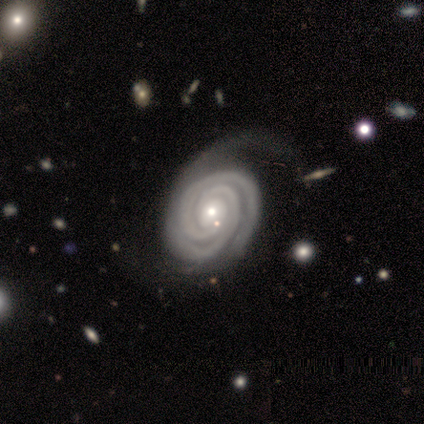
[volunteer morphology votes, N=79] A featured or disk galaxy (97%) with no bar (77%), 2 (64%) tight (89%) spiral arms (100%) and a small central bulge (63%).

Vote fractions:
- Smooth or featured? featured or disk: 97% / smooth: 1% / star or artifact: 1%
- Edge-on disk? no: 97% / yes: 3%
- Bar? no: 77% / strong: 12% / weak: 11%
- Spiral arms? yes: 100% / no: 0%
- Spiral winding? tight: 89% / medium: 11% / loose: 0%
- Spiral arm count? 2: 64% / 3: 19% / 4: 7% / more than 4: 5% / can't tell: 5% / 1: 0%
- Bulge size? small: 63% / moderate: 32% / large: 5% / dominant: 0% / none: 0%
- Merging? none: 49% / minor disturbance: 21% / major disturbance: 12% / merger: 1%